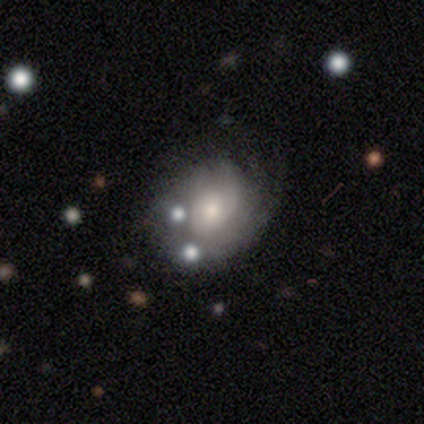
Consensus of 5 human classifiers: Smooth or featured? 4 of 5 (80%) said featured or disk. Edge-on disk? 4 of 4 (100%) said no. Bar? 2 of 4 (50%, tied with no) said weak. Spiral arms? 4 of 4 (100%) said yes. Spiral winding? 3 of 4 (75%) said loose. Spiral arm count? 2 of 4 (50%) said can't tell. Bulge size? 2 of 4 (50%, tied with small) said moderate. Merging? 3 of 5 (60%) said none.